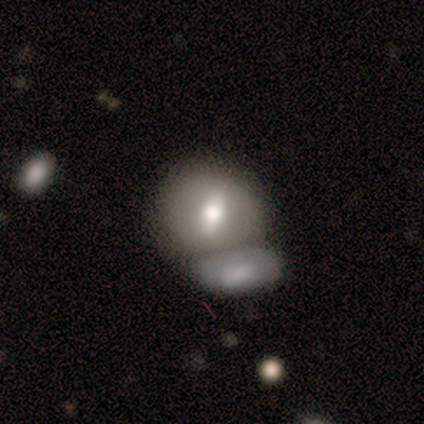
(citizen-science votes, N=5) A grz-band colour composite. It shows a smooth galaxy with no disk features (80%) that is round (75%). Merging: merger (60%).